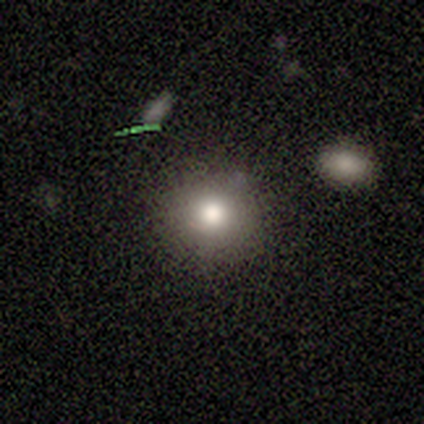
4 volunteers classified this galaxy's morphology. Smooth or featured?
  - smooth: 75% *
  - star or artifact: 25%
  - featured or disk: 0%
How rounded?
  - round: 100% *
  - in between: 0%
  - cigar-shaped: 0%
Merging?
  - none: 100% *
  - minor disturbance: 0%
  - major disturbance: 0%
  - merger: 0%